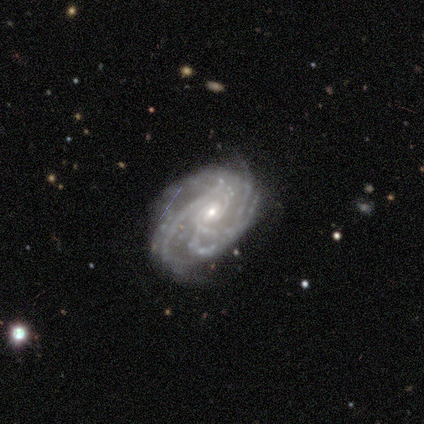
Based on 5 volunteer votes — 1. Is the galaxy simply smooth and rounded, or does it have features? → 100% featured or disk, 0% smooth, 0% star or artifact.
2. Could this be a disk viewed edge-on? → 100% no, 0% yes.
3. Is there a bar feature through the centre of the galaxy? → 80% no, 20% weak, 0% strong.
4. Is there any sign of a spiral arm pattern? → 100% yes, 0% no.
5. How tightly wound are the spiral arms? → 40% tight (tied), 40% medium (tied), 20% loose.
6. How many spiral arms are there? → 40% can't tell, 20% 3, 20% 4, 20% more than 4, 0% 1, 0% 2.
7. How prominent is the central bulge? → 80% small, 20% moderate, 0% dominant, 0% large, 0% none.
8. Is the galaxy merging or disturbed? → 60% none, 40% minor disturbance, 0% major disturbance, 0% merger.